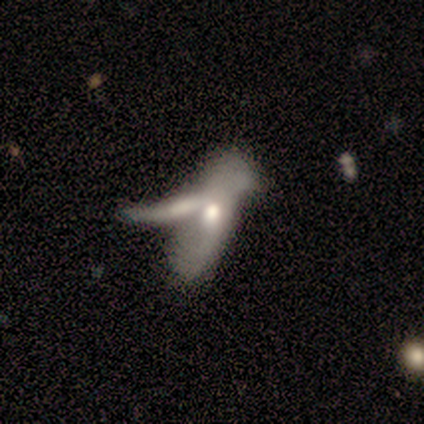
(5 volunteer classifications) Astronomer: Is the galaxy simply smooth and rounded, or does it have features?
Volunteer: featured or disk — 60% (runner-up: smooth, 40%).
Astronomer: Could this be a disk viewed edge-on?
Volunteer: no — 100%.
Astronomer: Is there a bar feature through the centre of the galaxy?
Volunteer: no — 67%.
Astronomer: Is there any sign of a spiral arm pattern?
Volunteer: yes — 100%.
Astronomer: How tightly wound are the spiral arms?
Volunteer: loose — 67%.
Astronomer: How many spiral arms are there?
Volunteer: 2 — 100%.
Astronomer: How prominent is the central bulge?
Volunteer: moderate — 67%.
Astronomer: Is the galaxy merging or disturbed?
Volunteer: merger — 80%.